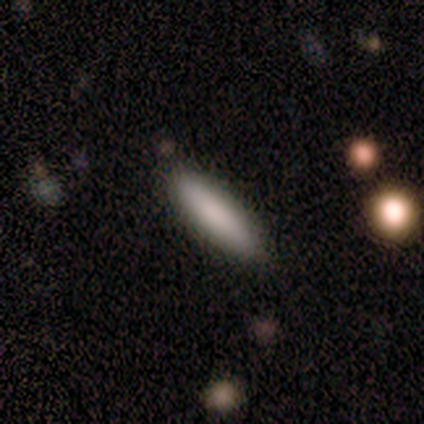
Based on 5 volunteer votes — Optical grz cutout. It shows a smooth galaxy with no disk features (100%) that is cigar-shaped (60%). Merging: none (80%).